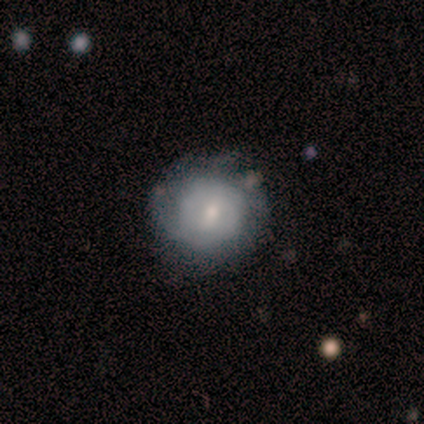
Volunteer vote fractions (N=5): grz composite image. It shows a featured or disk galaxy (80%) with a weak bar (50%, tied with no), 2 (33%, tied with more than 4 and can't tell) tight (67%) spiral arms (75%) and a small central bulge (50%). Merging: none (80%).